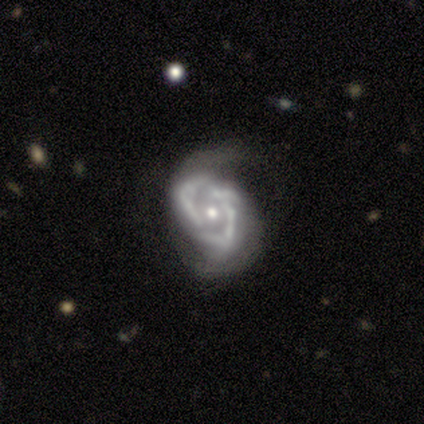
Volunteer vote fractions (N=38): Morphology: type=featured or disk (97%); edge-on=no (100%); bar=no (76%); spiral arms=yes (76%); winding=tight (36%, tied with medium); arm count=2 (57%); bulge=moderate (62%); merging=major disturbance (39%).